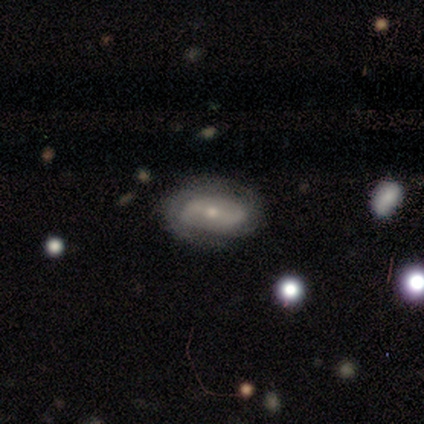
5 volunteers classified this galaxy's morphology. Smooth or featured? featured or disk (60%)
Edge-on disk? no (100%)
Bar? strong (100%)
Spiral arms? yes (67%)
Spiral winding? medium (100%)
Spiral arm count? 2 (100%)
Bulge size? moderate (67%)
Merging? none (60%)